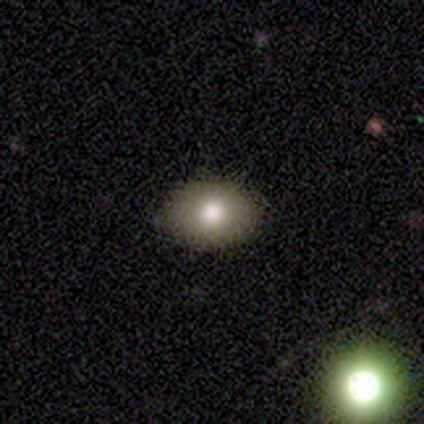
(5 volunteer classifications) Smooth or featured?
  - smooth: 100% *
  - featured or disk: 0%
  - star or artifact: 0%
How rounded?
  - in between: 80% *
  - round: 20%
  - cigar-shaped: 0%
Merging?
  - none: 100% *
  - minor disturbance: 0%
  - major disturbance: 0%
  - merger: 0%